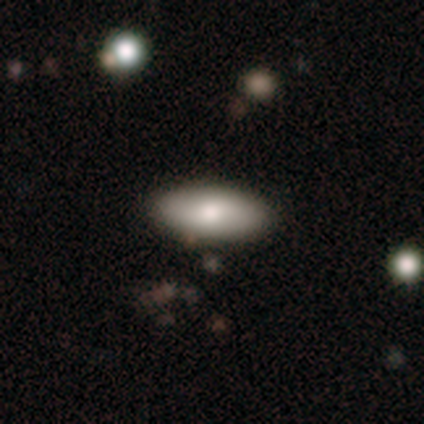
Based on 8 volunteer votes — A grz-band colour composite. It shows a smooth galaxy with no disk features (88%) that is in between round and cigar-shaped (100%). Merging: none (88%).